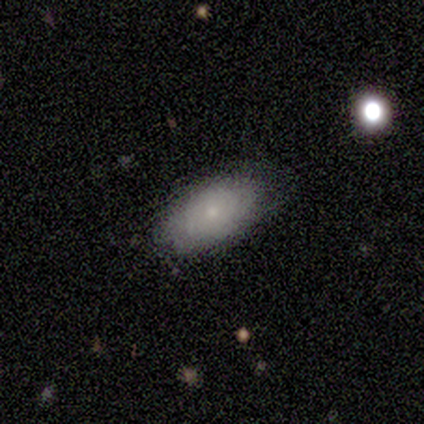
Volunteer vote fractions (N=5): This appears to be a smooth galaxy with no disk features (100%) that is in between round and cigar-shaped (100%). Merging: none (100%).